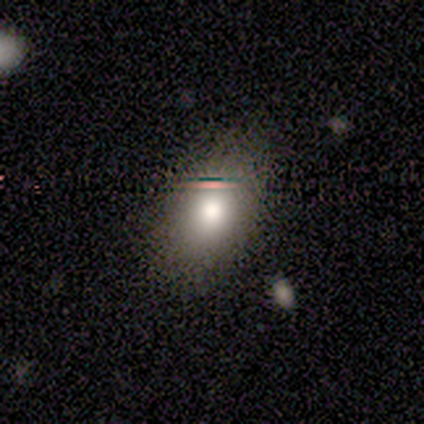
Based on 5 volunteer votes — Smooth or featured: smooth — 100%
How rounded: in between — 80% (round — 20%)
Merging: none — 80% (minor disturbance — 20%)